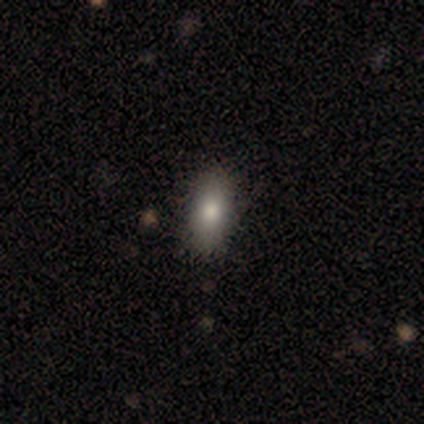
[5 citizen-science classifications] smooth 80%, star or artifact 20%, featured or disk 0%. Down the decision tree: how rounded — in between (75%); merging — none (100%).